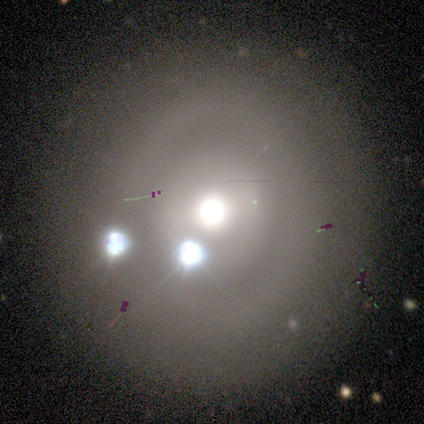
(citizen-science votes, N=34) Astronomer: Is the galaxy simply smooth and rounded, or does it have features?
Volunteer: star or artifact — 44% (runner-up: featured or disk, 35%).